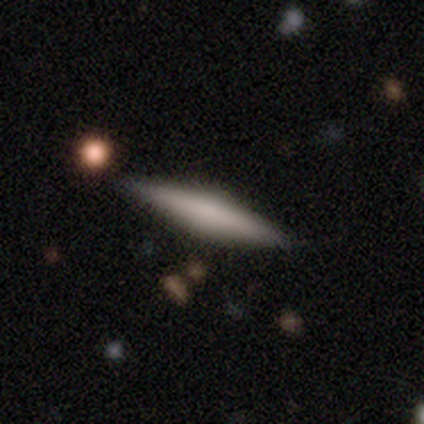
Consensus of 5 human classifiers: Smooth or featured: featured or disk — 80% (smooth — 20%)
Edge-on disk: yes — 100%
Edge-on bulge: boxy — 75% (rounded — 25%)
Merging: none — 100%